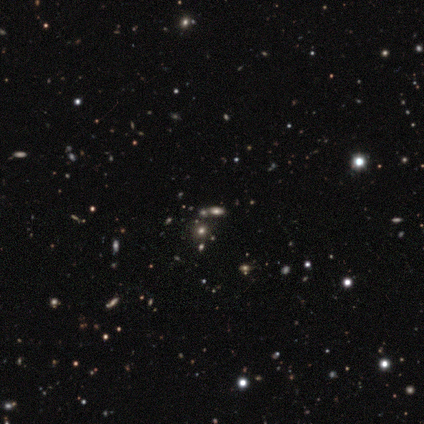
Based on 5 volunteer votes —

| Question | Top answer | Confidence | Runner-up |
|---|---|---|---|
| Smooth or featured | smooth | 80% | star or artifact (20%) |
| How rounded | round | 50% | tied: in between (50%) |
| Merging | none | 75% | merger (25%) |